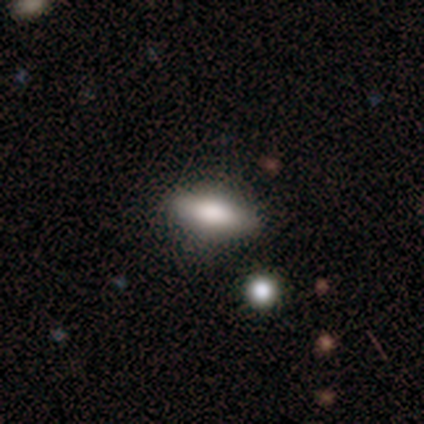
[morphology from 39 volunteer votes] Volunteers were most divided on "smooth or featured": smooth: 67%, featured or disk: 23%, star or artifact: 10%. More confident: how rounded — in between (92%); merging — none (86%).